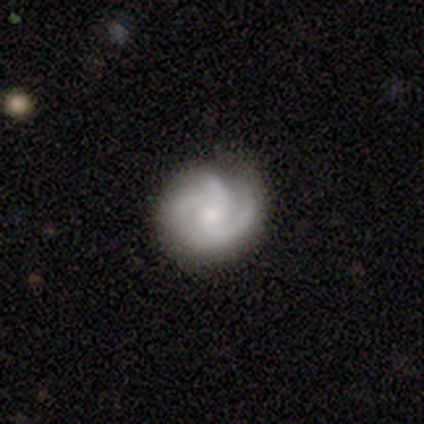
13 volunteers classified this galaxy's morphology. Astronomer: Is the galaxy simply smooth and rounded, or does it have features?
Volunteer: featured or disk — 92%.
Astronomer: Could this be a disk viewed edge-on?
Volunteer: no — 83%.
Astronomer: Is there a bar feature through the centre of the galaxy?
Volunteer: no — 80%.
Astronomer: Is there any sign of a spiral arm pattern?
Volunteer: yes — 100%.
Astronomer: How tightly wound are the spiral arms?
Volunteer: tight — 50%, tied with medium at 50%.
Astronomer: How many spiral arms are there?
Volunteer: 3 — 80%.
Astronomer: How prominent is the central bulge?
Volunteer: moderate — 50%, tied with small at 50%.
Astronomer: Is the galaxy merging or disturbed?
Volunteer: none — 62%.